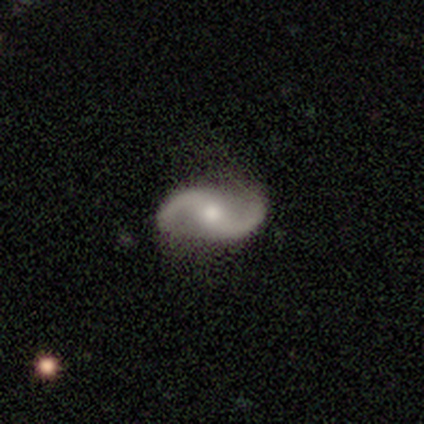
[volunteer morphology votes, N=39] A featured or disk galaxy (95%) with no bar (53%), 2 (97%) loose (61%) spiral arms (100%) and a moderate central bulge (75%).

Vote fractions:
- Smooth or featured? featured or disk: 95% / smooth: 5% / star or artifact: 0%
- Edge-on disk? no: 97% / yes: 3%
- Bar? no: 53% / weak: 31% / strong: 17%
- Spiral arms? yes: 100% / no: 0%
- Spiral winding? loose: 61% / medium: 39% / tight: 0%
- Spiral arm count? 2: 97% / 3: 3% / 1: 0% / 4: 0% / more than 4: 0% / can't tell: 0%
- Bulge size? moderate: 75% / small: 17% / large: 6% / none: 3% / dominant: 0%
- Merging? none: 59% / minor disturbance: 10% / major disturbance: 5% / merger: 3%